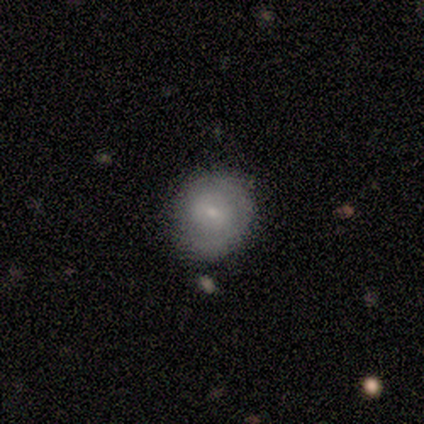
Q: Smooth or featured?
A: smooth (80%); runner-up: featured or disk (20%)
Q: How rounded?
A: round (100%)
Q: Merging?
A: major disturbance (60%); runner-up: none (40%)